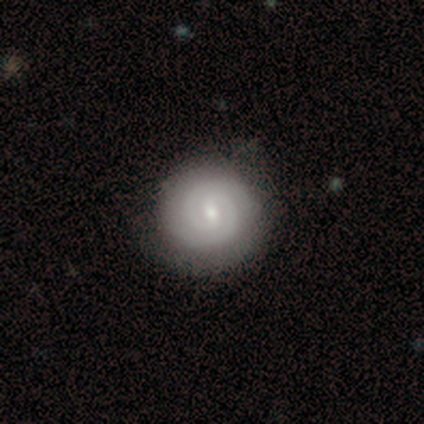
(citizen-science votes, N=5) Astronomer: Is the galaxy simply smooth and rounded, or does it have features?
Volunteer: featured or disk — 80%.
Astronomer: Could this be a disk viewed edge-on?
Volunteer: no — 100%.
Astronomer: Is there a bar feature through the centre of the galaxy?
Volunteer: weak — 75%.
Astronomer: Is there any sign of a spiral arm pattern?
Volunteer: yes — 100%.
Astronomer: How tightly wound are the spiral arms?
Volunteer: tight — 75%.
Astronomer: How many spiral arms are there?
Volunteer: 2 — 100%.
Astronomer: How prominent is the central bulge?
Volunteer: small — 75%.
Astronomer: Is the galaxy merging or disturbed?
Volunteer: none — 50%.